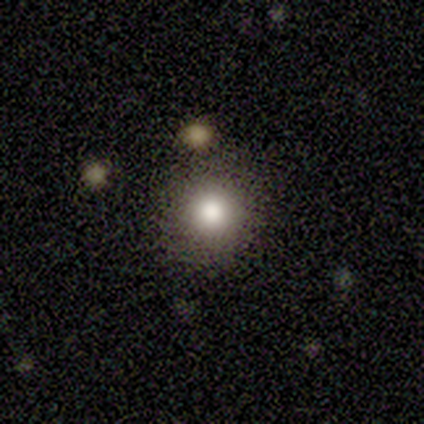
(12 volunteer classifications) A smooth galaxy with no disk features (100%) that is round (92%).

Vote fractions:
- Smooth or featured? smooth: 100% / featured or disk: 0% / star or artifact: 0%
- How rounded? round: 92% / in between: 8% / cigar-shaped: 0%
- Merging? none: 92% / merger: 8% / minor disturbance: 0% / major disturbance: 0%